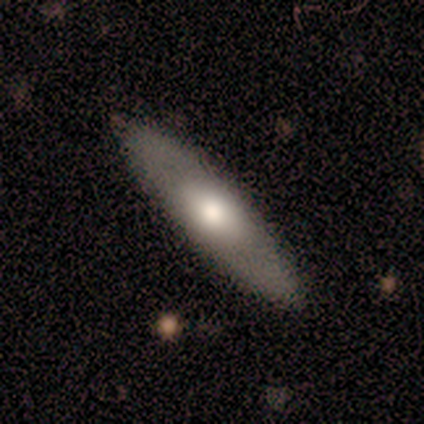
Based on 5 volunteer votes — Morphology: type=smooth (80%); roundness=in between (50%, tied with cigar-shaped); merging=none (100%).